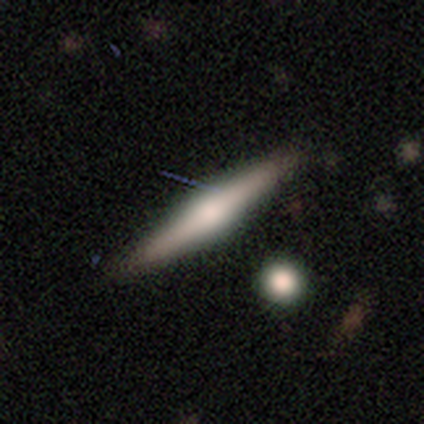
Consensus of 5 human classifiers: Smooth or featured? smooth (60%)
How rounded? cigar-shaped (67%)
Merging? none (100%)